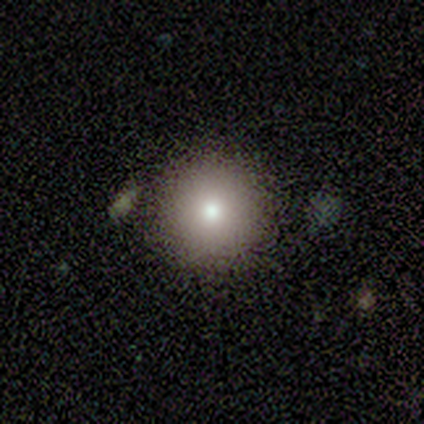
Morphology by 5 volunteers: Smooth or featured?
  - smooth: 100% *
  - featured or disk: 0%
  - star or artifact: 0%
How rounded?
  - round: 100% *
  - in between: 0%
  - cigar-shaped: 0%
Merging?
  - none: 100% *
  - minor disturbance: 0%
  - major disturbance: 0%
  - merger: 0%